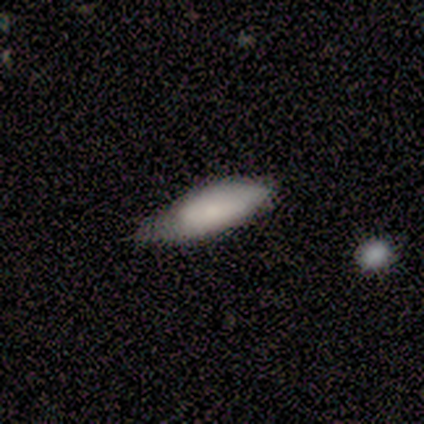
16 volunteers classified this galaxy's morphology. smooth-or-featured: smooth: 88% | featured or disk: 12% | star or artifact: 0%
  how-rounded: in between: 79% | cigar-shaped: 21% | round: 0%
  merging: minor disturbance: 56% | none: 38% | major disturbance: 6% | merger: 0%